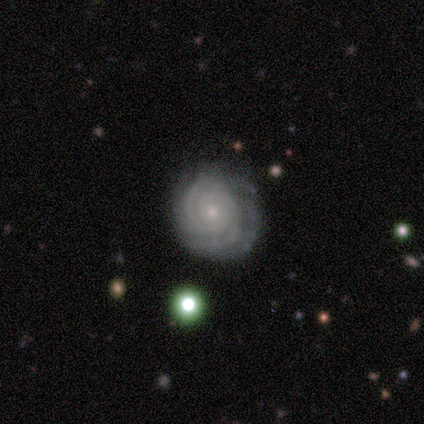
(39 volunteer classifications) smooth-or-featured: featured or disk: 87% | smooth: 10% | star or artifact: 3%
  disk-edge-on: no: 100% | yes: 0%
    bar: no: 76% | weak: 18% | strong: 6%
    has-spiral-arms: yes: 94% | no: 6%
      spiral-winding: tight: 88% | medium: 12% | loose: 0%
      spiral-arm-count: 4: 28% (tied) | can't tell: 28% (tied) | 2: 22% | 3: 19% | more than 4: 3% | 1: 0%
    bulge-size: small: 76% | moderate: 21% | large: 3% | dominant: 0% | none: 0%
  merging: none: 84% | minor disturbance: 13% | major disturbance: 3% | merger: 0%